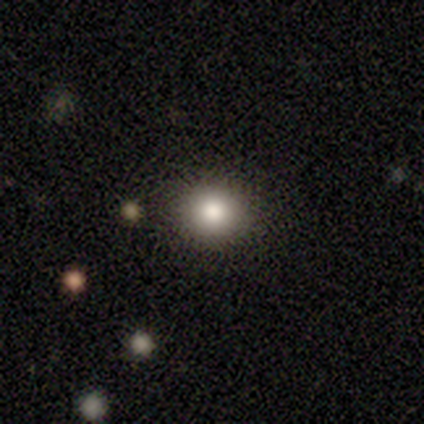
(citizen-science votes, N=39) Smooth or featured: smooth — 72% (featured or disk — 15%)
How rounded: round — 93% (in between — 7%)
Merging: none — 94% (major disturbance — 3%)